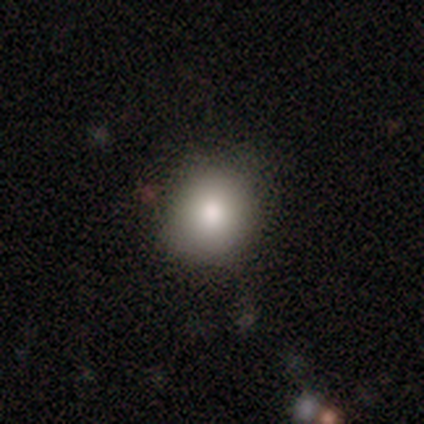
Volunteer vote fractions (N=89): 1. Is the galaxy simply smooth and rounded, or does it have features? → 81% smooth, 12% star or artifact, 7% featured or disk.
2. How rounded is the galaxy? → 81% round, 19% in between, 0% cigar-shaped.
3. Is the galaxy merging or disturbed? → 85% none, 12% minor disturbance, 3% major disturbance, 1% merger.